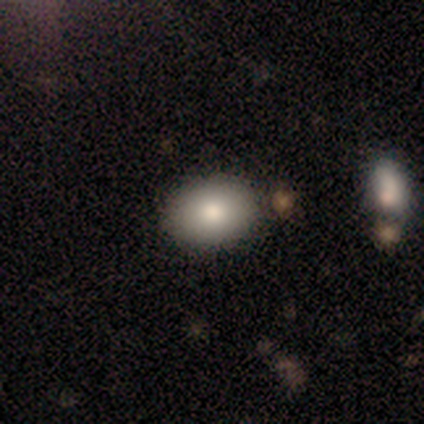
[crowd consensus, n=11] Smooth or featured? smooth (91%)
How rounded? in between (70%)
Merging? none (73%)